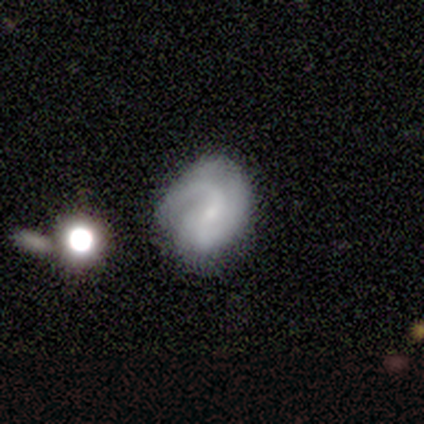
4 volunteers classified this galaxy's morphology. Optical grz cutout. It shows a featured or disk galaxy (75%) with a weak bar (67%), 2 (67%) medium (67%) spiral arms (100%) and a small central bulge (67%). Merging: none (100%).